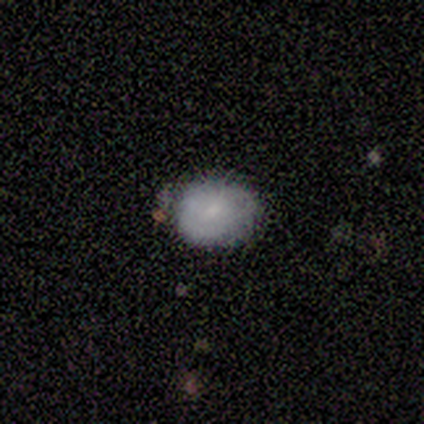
Smooth or featured?
  - smooth: 80% *
  - star or artifact: 20%
  - featured or disk: 0%
How rounded?
  - round: 50% * (tied)
  - in between: 50% * (tied)
  - cigar-shaped: 0%
Merging?
  - none: 75% *
  - minor disturbance: 25%
  - major disturbance: 0%
  - merger: 0%